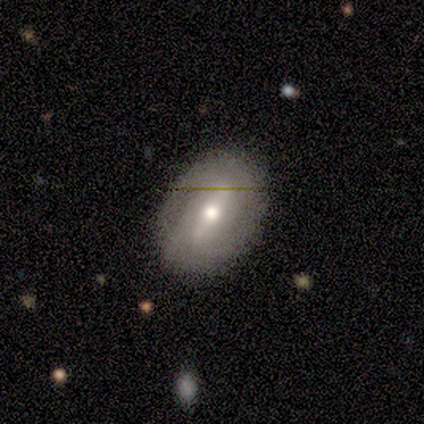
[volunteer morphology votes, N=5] Overall: featured or disk (80%). Edge-on disk: no (100%). Bar: strong (75%). Spiral arms: yes (50%, tied with no). Spiral arm count: 2 (50%, tied with 3). Spiral winding: medium (100%). Bulge size: moderate (100%). Merging: none (75%).